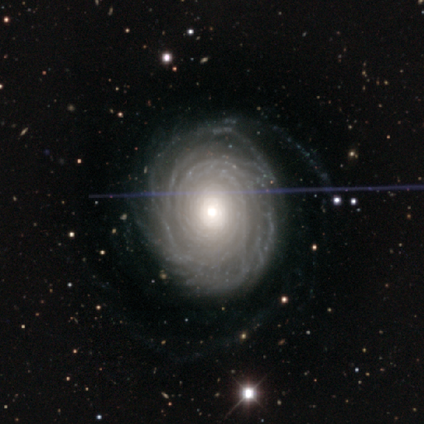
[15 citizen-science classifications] Overall: featured or disk (93%). Edge-on disk: no (100%). Bar: no (86%). Spiral arms: yes (93%). Spiral arm count: more than 4 (69%). Spiral winding: tight (85%). Bulge size: moderate (71%). Merging: none (53%; minor disturbance 40%).